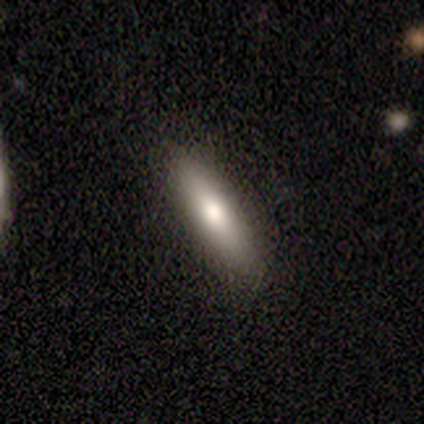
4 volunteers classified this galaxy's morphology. Overall: smooth (75%). How rounded: in between (100%). Merging: none (100%).